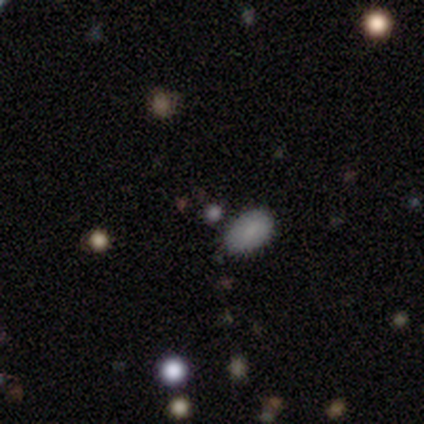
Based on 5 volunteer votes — Q: Smooth or featured?
A: smooth (60%); runner-up: star or artifact (40%)
Q: How rounded?
A: round (67%); runner-up: in between (33%)
Q: Merging?
A: none (100%)